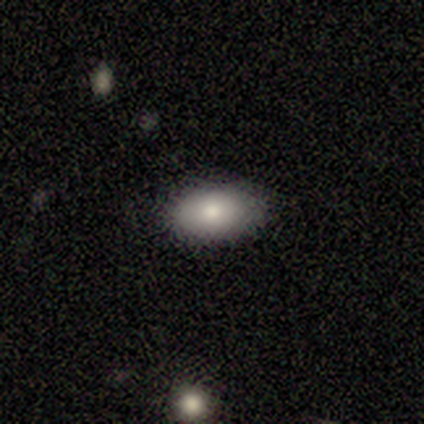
Volunteers were most divided on "smooth or featured": smooth: 75%, featured or disk: 25%, star or artifact: 0%. More confident: how rounded — in between (100%); merging — none (88%).